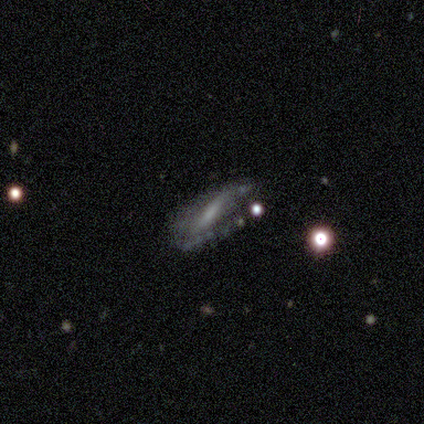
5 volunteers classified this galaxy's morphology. smooth-or-featured: featured or disk: 60% | smooth: 40% | star or artifact: 0%
  disk-edge-on: no: 100% | yes: 0%
    bar: strong: 67% | weak: 33% | no: 0%
    has-spiral-arms: yes: 100% | no: 0%
      spiral-winding: medium: 67% | tight: 33% | loose: 0%
      spiral-arm-count: 2: 67% | 1: 33% | 3: 0% | 4: 0% | more than 4: 0% | can't tell: 0%
    bulge-size: none: 67% | small: 33% | dominant: 0% | large: 0% | moderate: 0%
  merging: none: 40% (tied) | major disturbance: 40% (tied) | minor disturbance: 20% | merger: 0%